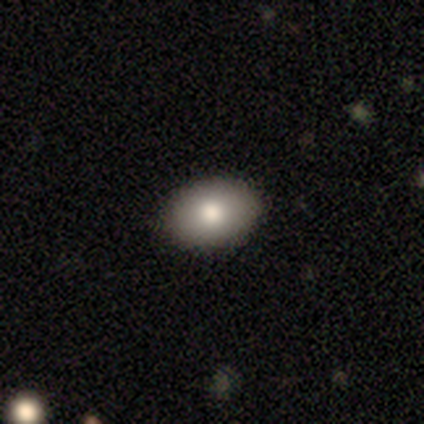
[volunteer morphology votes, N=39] Smooth or featured?
  - smooth: 82% *
  - featured or disk: 10%
  - star or artifact: 8%
How rounded?
  - in between: 66% *
  - round: 34%
  - cigar-shaped: 0%
Merging?
  - none: 94% *
  - minor disturbance: 6%
  - major disturbance: 0%
  - merger: 0%